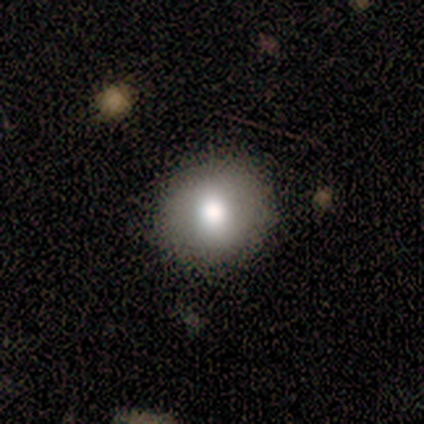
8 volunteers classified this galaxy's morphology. smooth_or_featured: smooth (p=1.00)
how_rounded: round (p=0.88) [alt: in between p=0.12]
merging: none (p=1.00)